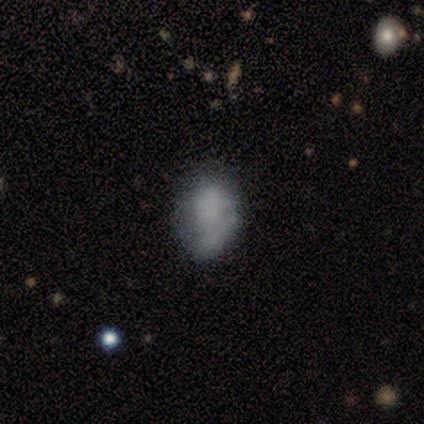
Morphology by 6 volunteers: Volunteers were most divided on "merging": none: 50%, minor disturbance: 33%, merger: 17%, major disturbance: 0%. More confident: how rounded — in between (100%); smooth or featured — smooth (83%).